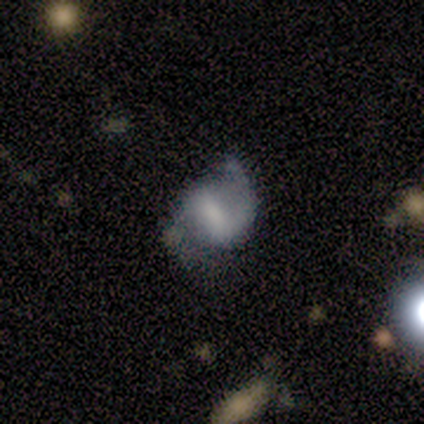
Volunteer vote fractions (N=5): Q: Smooth or featured?
A: featured or disk (80%); runner-up: smooth (20%)
Q: Edge-on disk?
A: no (100%)
Q: Bar?
A: weak (75%); runner-up: strong (25%)
Q: Spiral arms?
A: yes (100%)
Q: Spiral winding?
A: tight (50%); runner-up: medium (25%)
Q: Spiral arm count?
A: 2 (75%); runner-up: 1 (25%)
Q: Bulge size?
A: none (50%); runner-up: large (25%)
Q: Merging?
A: none (40%); tied with: minor disturbance (40%)